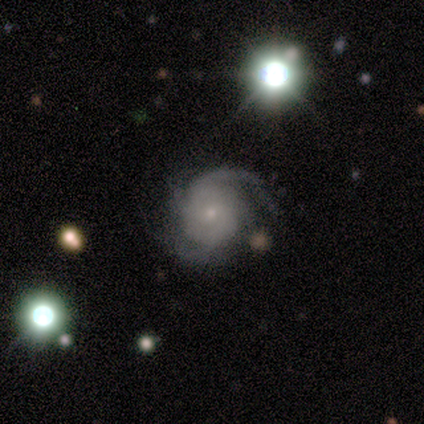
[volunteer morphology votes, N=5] featured or disk 100%, smooth 0%, star or artifact 0%. Down the decision tree: edge-on disk — no (100%); bar — no (80%); spiral arms — yes (100%); spiral arm count — 3 (40%); spiral winding — medium (60%); bulge size — small (100%); merging — none (80%).